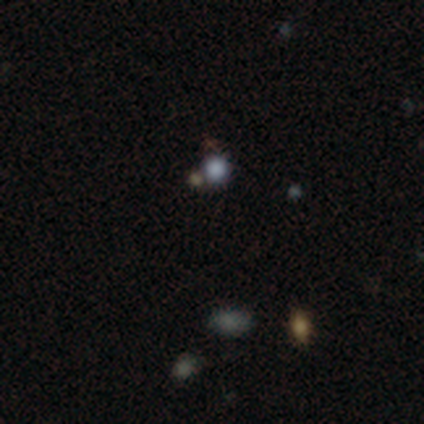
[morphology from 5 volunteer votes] Smooth or featured? 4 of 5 (80%) said smooth. How rounded? 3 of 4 (75%) said round. Merging? 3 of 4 (75%) said none.